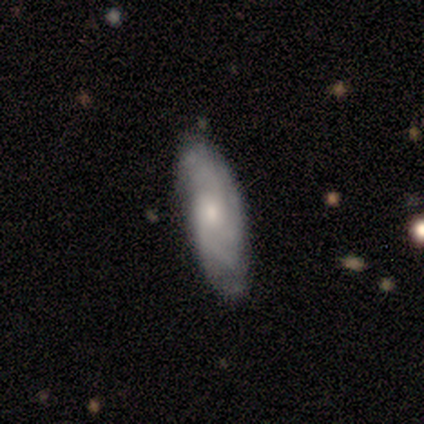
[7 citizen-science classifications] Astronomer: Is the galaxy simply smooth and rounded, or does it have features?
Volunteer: featured or disk — 86%.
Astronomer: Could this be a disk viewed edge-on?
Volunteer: no — 83%.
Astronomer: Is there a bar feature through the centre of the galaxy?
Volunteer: no — 60% (runner-up: weak, 40%).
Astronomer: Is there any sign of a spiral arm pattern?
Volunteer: yes — 100%.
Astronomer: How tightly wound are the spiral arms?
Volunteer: tight — 80%.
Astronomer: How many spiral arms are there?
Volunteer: can't tell — 40% (runner-up: 2, 20%).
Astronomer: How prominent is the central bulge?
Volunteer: moderate — 80%.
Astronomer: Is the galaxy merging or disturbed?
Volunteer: none — 71%.